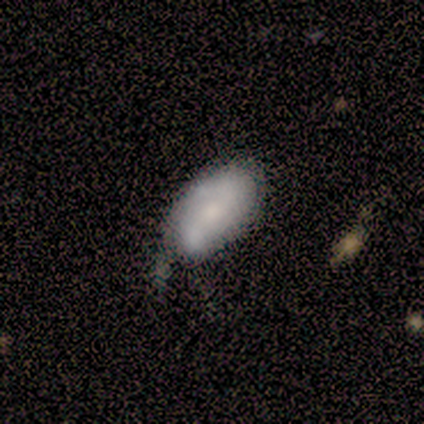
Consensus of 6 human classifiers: Smooth or featured? smooth (50%, tied with featured or disk)
How rounded? in between (100%)
Merging? minor disturbance (67%)